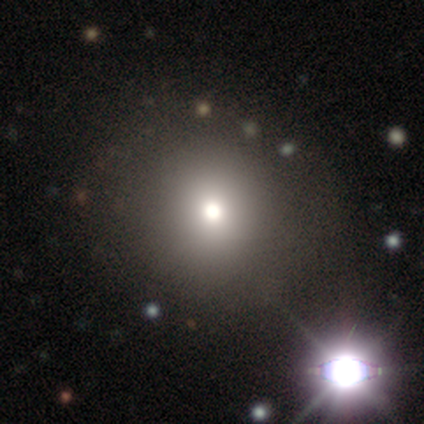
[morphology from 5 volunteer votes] Volunteers were most divided on "smooth or featured": smooth: 60%, star or artifact: 40%, featured or disk: 0%. More confident: how rounded — round (100%); merging — none (100%).